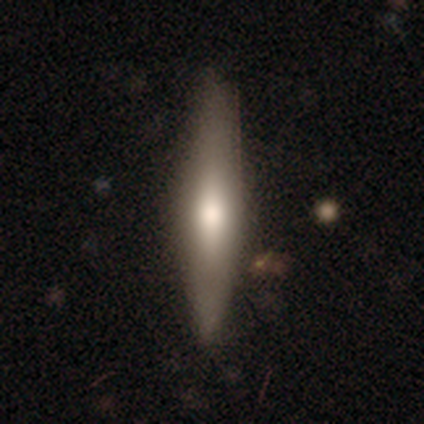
A featured or disk galaxy (55%) viewed edge-on (76%) with a rounded central bulge (88%).

Vote fractions:
- Smooth or featured? featured or disk: 55% / smooth: 42% / star or artifact: 3%
- Edge-on disk? yes: 76% / no: 24%
- Edge-on bulge? rounded: 88% / boxy: 6% / none: 6%
- Merging? none: 76% / minor disturbance: 19% / major disturbance: 5% / merger: 0%